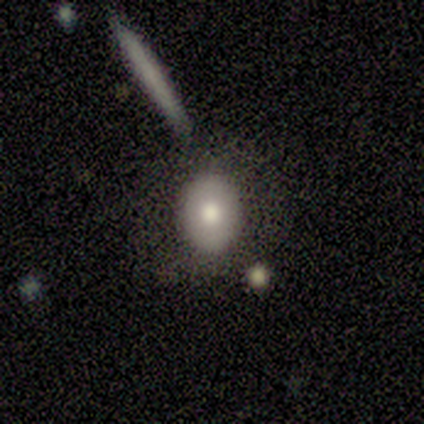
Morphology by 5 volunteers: A smooth galaxy with no disk features (80%) that is in between round and cigar-shaped (75%).

Vote fractions:
- Smooth or featured? smooth: 80% / featured or disk: 20% / star or artifact: 0%
- How rounded? in between: 75% / round: 25% / cigar-shaped: 0%
- Merging? none: 100% / minor disturbance: 0% / major disturbance: 0% / merger: 0%